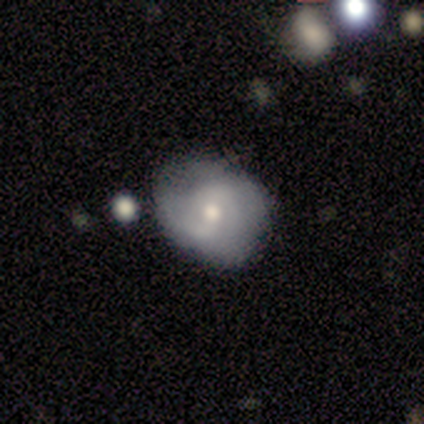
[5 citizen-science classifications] featured or disk 60%, smooth 40%, star or artifact 0%. Down the decision tree: edge-on disk — no (100%); bar — no (67%); spiral arms — yes (100%); spiral arm count — 2 (67%); spiral winding — tight (33%, tied with medium and loose); bulge size — small (67%); merging — minor disturbance (60%).